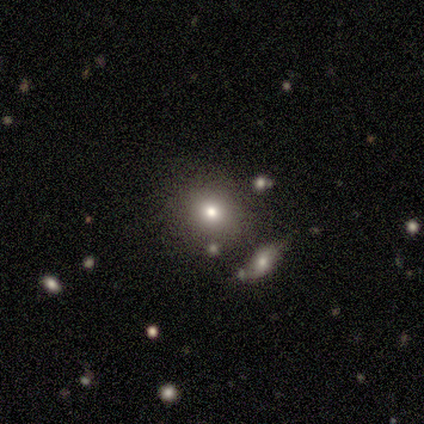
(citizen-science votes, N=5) This is clearly a smooth galaxy (80%). How rounded: likely round (75%). Merging: clearly none (80%).